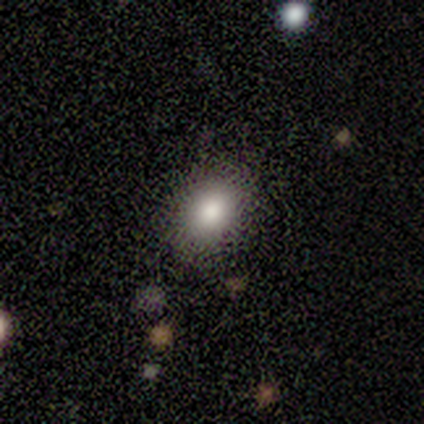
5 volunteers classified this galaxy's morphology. smooth_or_featured: smooth (p=1.00)
how_rounded: in between (p=0.80) [alt: round p=0.20]
merging: none (p=1.00)